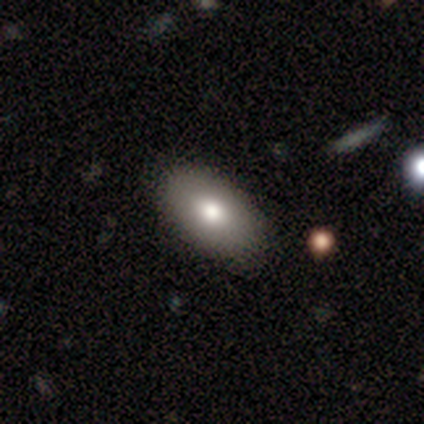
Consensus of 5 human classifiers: This is likely a smooth galaxy (60%). How rounded: clearly in between (100%). Merging: clearly none (80%).